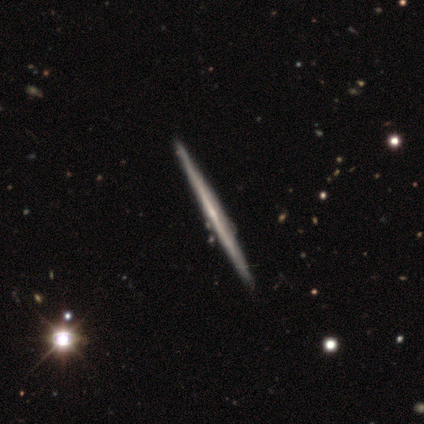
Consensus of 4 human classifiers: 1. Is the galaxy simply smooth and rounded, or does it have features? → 50% smooth (tied), 50% featured or disk (tied), 0% star or artifact.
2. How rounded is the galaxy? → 100% cigar-shaped, 0% round, 0% in between.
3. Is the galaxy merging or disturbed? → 75% none, 25% minor disturbance, 0% major disturbance, 0% merger.